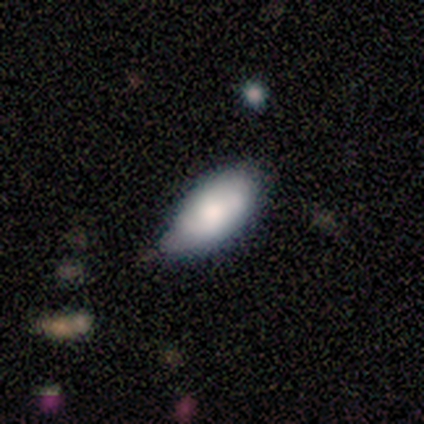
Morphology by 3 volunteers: smooth-or-featured: smooth: 100% | featured or disk: 0% | star or artifact: 0%
  how-rounded: in between: 100% | round: 0% | cigar-shaped: 0%
  merging: minor disturbance: 67% | none: 33% | major disturbance: 0% | merger: 0%